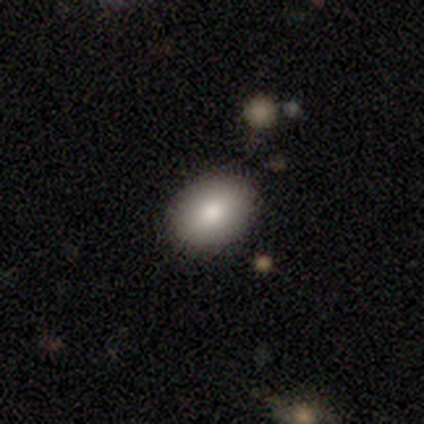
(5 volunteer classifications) Smooth or featured? 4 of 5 (80%) said smooth. How rounded? 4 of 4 (100%) said in between. Merging? 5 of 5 (100%) said none.